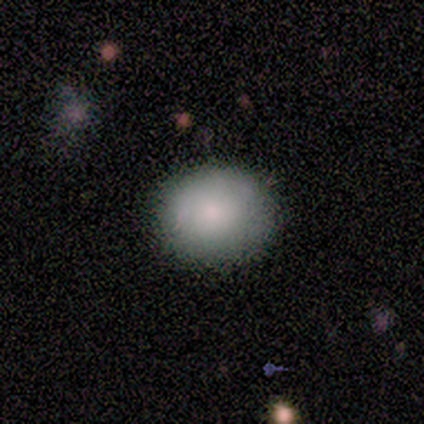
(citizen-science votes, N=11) Smooth or featured?
  - smooth: 82% *
  - featured or disk: 9%
  - star or artifact: 9%
How rounded?
  - round: 56% *
  - in between: 44%
  - cigar-shaped: 0%
Merging?
  - none: 80% *
  - minor disturbance: 10%
  - major disturbance: 10%
  - merger: 0%